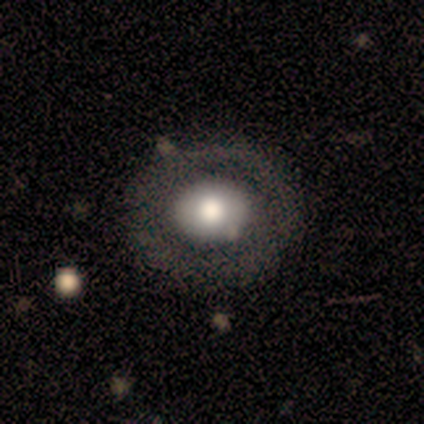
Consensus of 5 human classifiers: smooth-or-featured: featured or disk: 60% | smooth: 40% | star or artifact: 0%
  disk-edge-on: no: 100% | yes: 0%
    bar: no: 100% | strong: 0% | weak: 0%
    has-spiral-arms: no: 100% | yes: 0%
    bulge-size: moderate: 67% | large: 33% | dominant: 0% | small: 0% | none: 0%
  merging: none: 100% | minor disturbance: 0% | major disturbance: 0% | merger: 0%